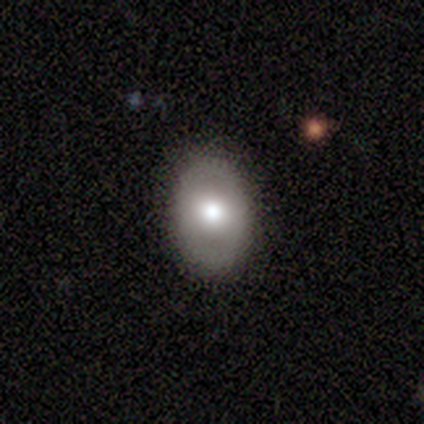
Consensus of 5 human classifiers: Smooth or featured? smooth (60%)
How rounded? in between (100%)
Merging? none (80%)